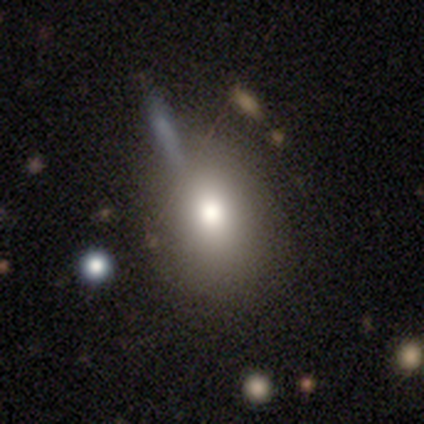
Volunteers were most divided on "smooth or featured": smooth: 60%, featured or disk: 40%, star or artifact: 0%. More confident: how rounded — in between (100%); merging — none (60%).